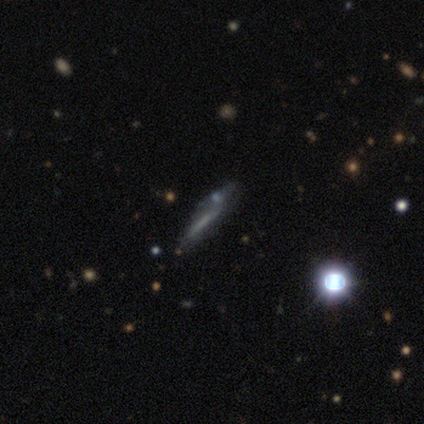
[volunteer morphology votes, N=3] This is likely a featured or disk galaxy (67%). It is clearly not viewed edge-on (100%). Bar: possibly strong (50%, tied with no). Spiral arm pattern: possibly yes (50%, tied with no). Spiral arm count: clearly 2 (100%). Spiral winding: clearly tight (100%). Central bulge: possibly small (50%, tied with none). Merging: possibly minor disturbance (50%, tied with major disturbance).